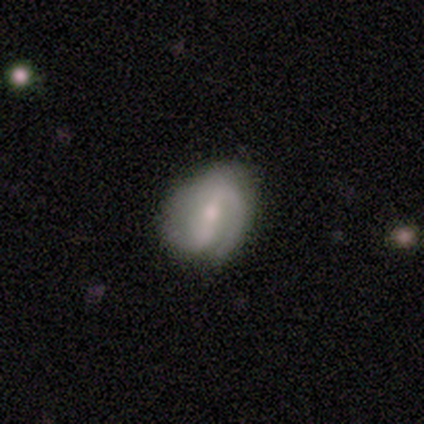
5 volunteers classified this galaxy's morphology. featured or disk 80%, smooth 20%, star or artifact 0%. Down the decision tree: edge-on disk — no (100%); bar — strong (75%); spiral arms — yes (100%); spiral arm count — 1 (75%); spiral winding — tight (50%); bulge size — moderate (100%); merging — major disturbance (60%).